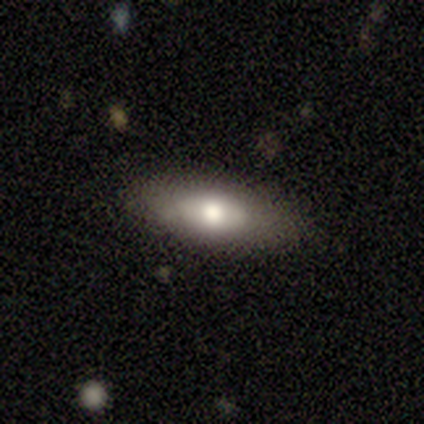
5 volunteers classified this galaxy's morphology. Overall: smooth (60%; featured or disk 40%). How rounded: in between (100%). Merging: none (80%).